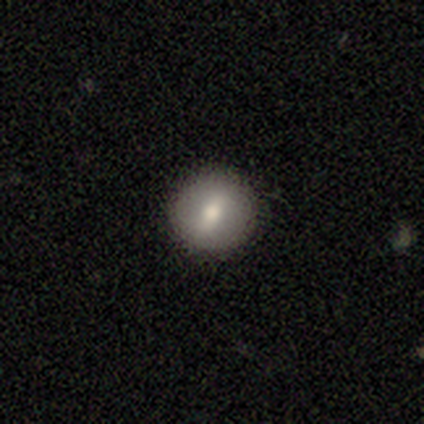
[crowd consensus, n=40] A smooth galaxy with no disk features (65%) that is round (92%).

Vote fractions:
- Smooth or featured? smooth: 65% / featured or disk: 30% / star or artifact: 5%
- How rounded? round: 92% / in between: 8% / cigar-shaped: 0%
- Merging? none: 92% / minor disturbance: 5% / merger: 3% / major disturbance: 0%